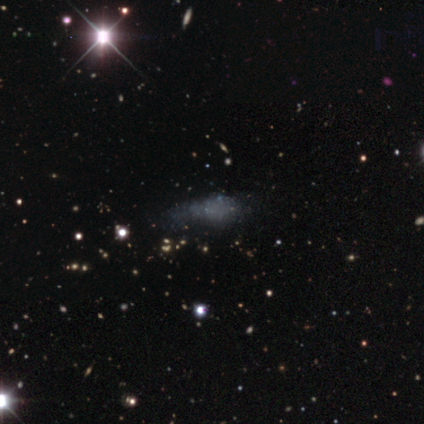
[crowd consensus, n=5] This is likely a featured or disk galaxy (60%). It is clearly not viewed edge-on (100%). Bar: clearly no (100%). Spiral arm pattern: clearly no (100%). Central bulge: clearly none (100%). Merging: likely none (60%).